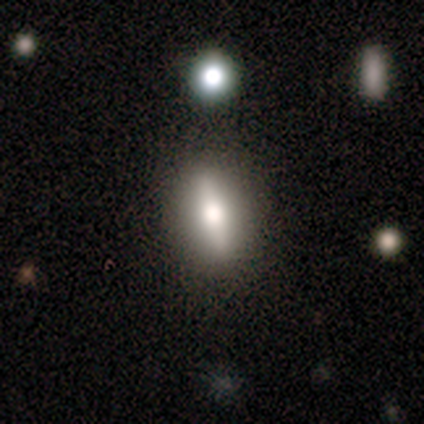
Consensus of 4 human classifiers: Smooth or featured? 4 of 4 (100%) said featured or disk. Edge-on disk? 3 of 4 (75%) said yes. Edge-on bulge? 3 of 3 (100%) said rounded. Merging? 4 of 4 (100%) said none.